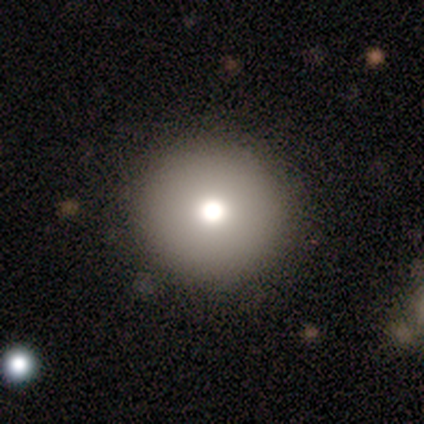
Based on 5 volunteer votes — A smooth galaxy with no disk features (60%) that is round (100%).

Vote fractions:
- Smooth or featured? smooth: 60% / featured or disk: 40% / star or artifact: 0%
- How rounded? round: 100% / in between: 0% / cigar-shaped: 0%
- Merging? none: 60% / minor disturbance: 40% / major disturbance: 0% / merger: 0%